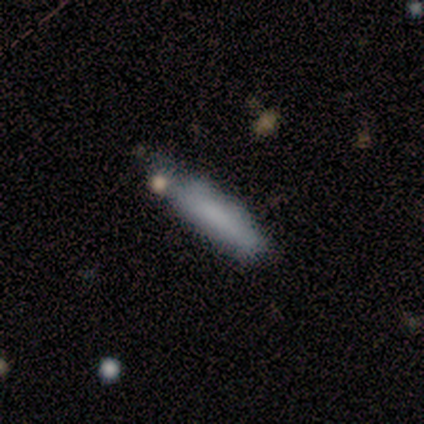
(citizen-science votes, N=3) This appears to be a smooth galaxy with no disk features (100%) that is cigar-shaped (67%). Merging: none (100%).